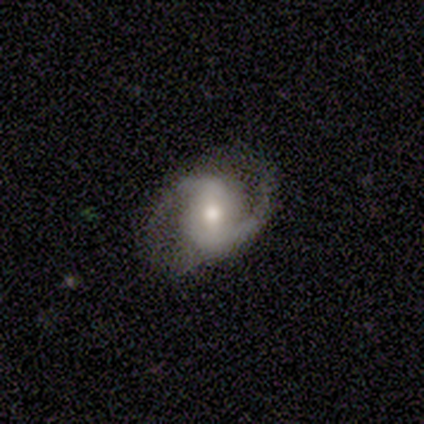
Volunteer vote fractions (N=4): This appears to be a featured or disk galaxy (100%) with a weak bar (50%, tied with no), 2 (75%) medium (75%) spiral arms (100%) and a moderate central bulge (50%, tied with small). Merging: none (100%).